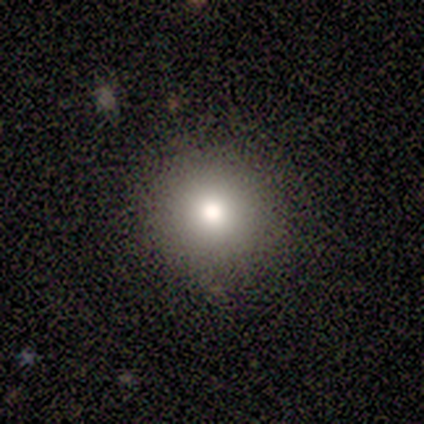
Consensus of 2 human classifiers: This appears to be a smooth galaxy with no disk features (100%) that is round (100%). Merging: none (100%).